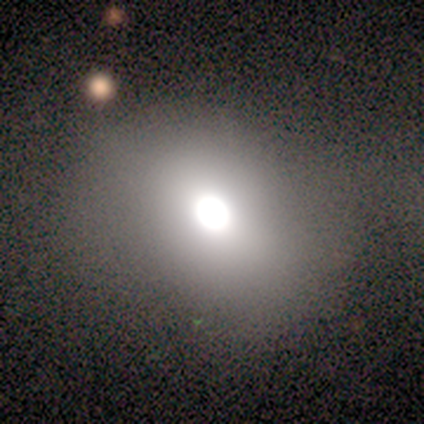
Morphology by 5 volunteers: Volunteers were most divided on "how rounded": in between: 60%, round: 40%, cigar-shaped: 0%. More confident: smooth or featured — smooth (100%); merging — none (80%).